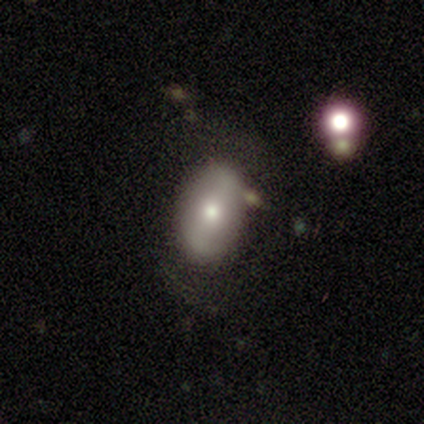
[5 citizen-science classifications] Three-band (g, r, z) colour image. It shows a smooth galaxy with no disk features (60%) that is in between round and cigar-shaped (100%). Merging: none (50%).